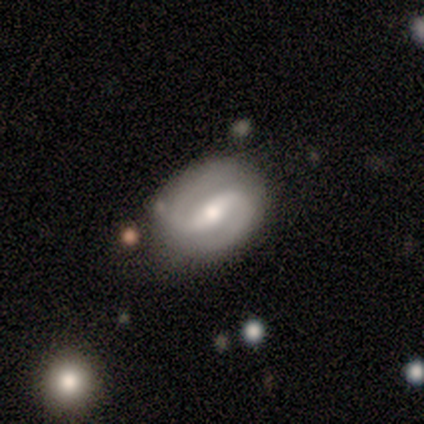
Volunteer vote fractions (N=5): smooth_or_featured: featured or disk (p=1.00)
disk_edge_on: no (p=1.00)
bar: strong (p=0.60) [alt: weak p=0.20]
has_spiral_arms: yes (p=1.00)
spiral_winding: medium (p=0.60) [alt: loose p=0.40]
spiral_arm_count: 2 (p=1.00)
bulge_size: moderate (p=0.60) [alt: small p=0.40]
merging: none (p=1.00)